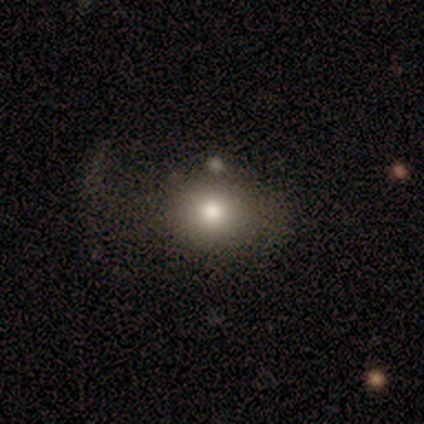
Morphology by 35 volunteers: Smooth or featured?
  - smooth: 63% *
  - star or artifact: 20%
  - featured or disk: 17%
How rounded?
  - round: 59% *
  - in between: 41%
  - cigar-shaped: 0%
Merging?
  - none: 46% *
  - major disturbance: 32%
  - minor disturbance: 18%
  - merger: 4%